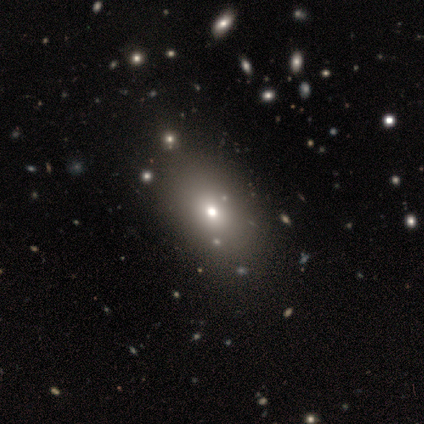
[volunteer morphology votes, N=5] Overall: smooth (60%; featured or disk 40%). How rounded: in between (100%). Merging: none (100%).